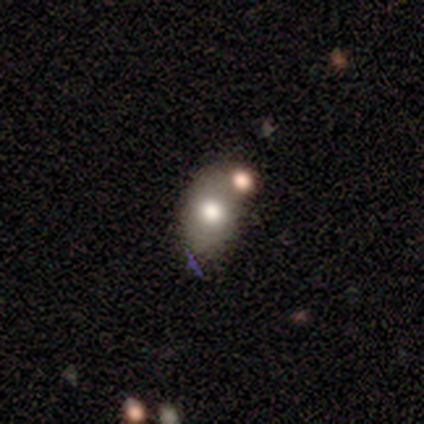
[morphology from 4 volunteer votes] A smooth galaxy with no disk features (75%) that is in between round and cigar-shaped (100%). Merging: merger (50%).